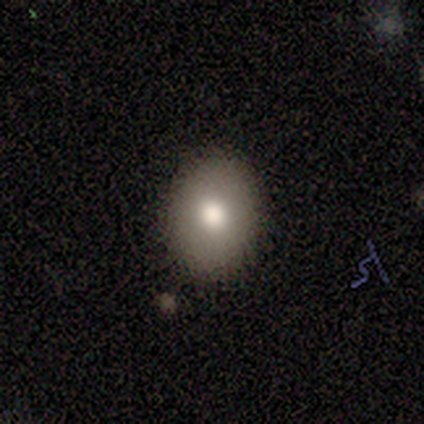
Smooth or featured? 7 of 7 (100%) said smooth. How rounded? 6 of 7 (86%) said in between. Merging? 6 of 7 (86%) said none.